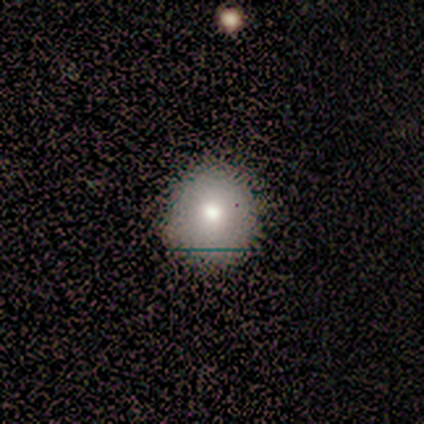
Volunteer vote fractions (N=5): Overall: smooth (100%). How rounded: round (80%). Merging: none (100%).